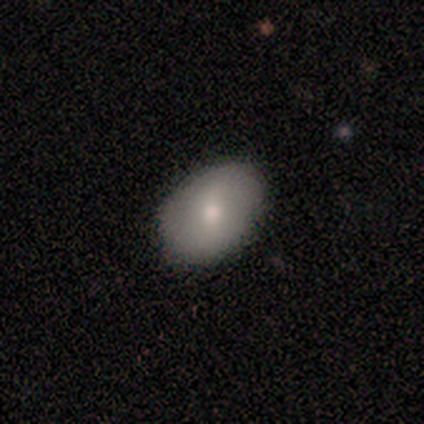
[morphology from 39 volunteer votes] Q: Smooth or featured?
A: smooth (62%); runner-up: featured or disk (36%)
Q: How rounded?
A: in between (67%); runner-up: round (33%)
Q: Merging?
A: none (58%); runner-up: minor disturbance (16%)